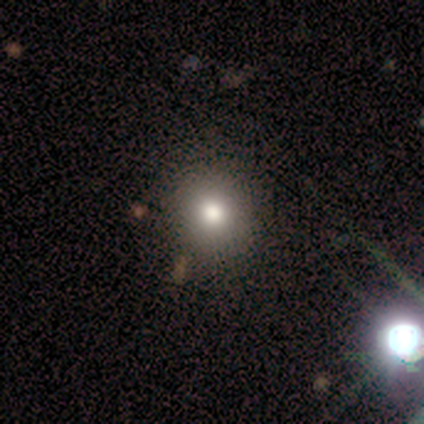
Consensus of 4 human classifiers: smooth 75%, featured or disk 25%, star or artifact 0%. Down the decision tree: how rounded — round (100%); merging — none (75%).